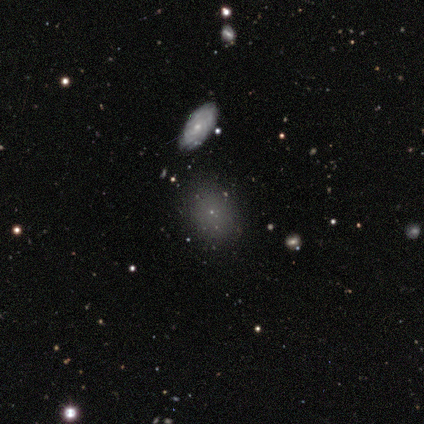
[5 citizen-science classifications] smooth_or_featured: smooth (p=0.60) [alt: featured or disk p=0.20]
how_rounded: round (p=0.67) [alt: in between p=0.33]
merging: none (p=1.00)